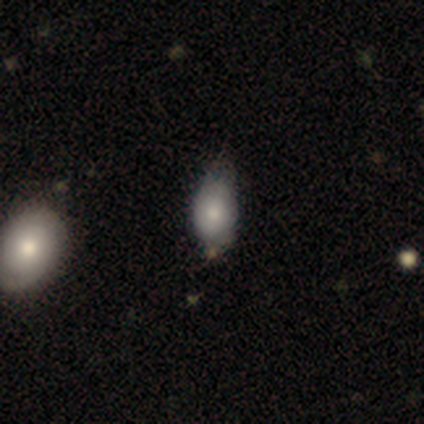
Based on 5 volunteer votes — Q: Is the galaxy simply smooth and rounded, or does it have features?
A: smooth — 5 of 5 (100%).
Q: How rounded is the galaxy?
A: in between — 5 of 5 (100%).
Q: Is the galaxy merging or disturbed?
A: minor disturbance — 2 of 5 (40%, tied with major disturbance).